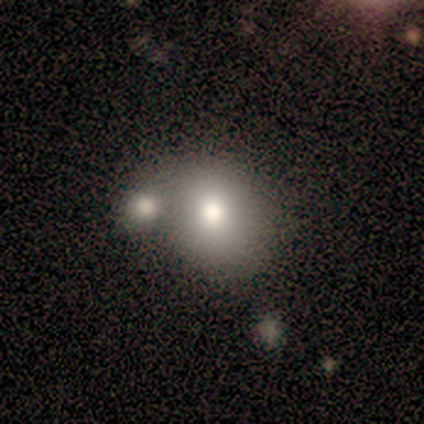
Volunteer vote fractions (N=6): smooth_or_featured: smooth (p=0.83) [alt: featured or disk p=0.17]
how_rounded: round (p=0.80) [alt: in between p=0.20]
merging: none (p=0.33) [tied with: merger p=0.33]